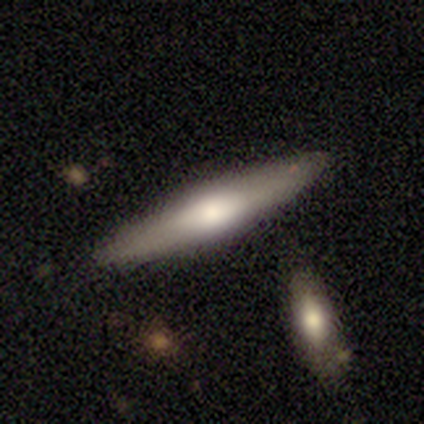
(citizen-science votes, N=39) Volunteers were most divided on "smooth or featured": featured or disk: 51%, smooth: 49%, star or artifact: 0%. More confident: edge-on bulge — rounded (81%); edge-on disk — yes (80%); merging — none (59%).